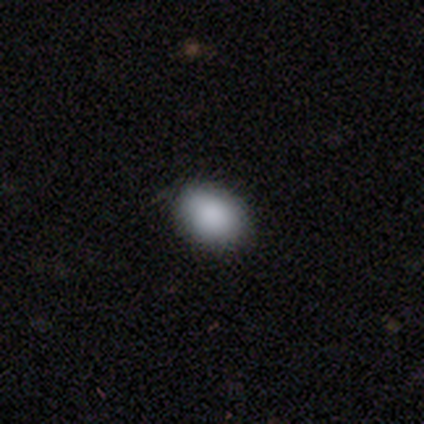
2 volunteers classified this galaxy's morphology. smooth_or_featured: smooth (p=1.00)
how_rounded: in between (p=1.00)
merging: none (p=1.00)